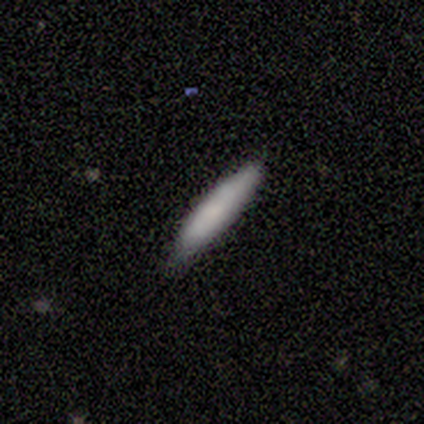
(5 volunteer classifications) Smooth or featured?
  - smooth: 100% *
  - featured or disk: 0%
  - star or artifact: 0%
How rounded?
  - cigar-shaped: 60% *
  - in between: 40%
  - round: 0%
Merging?
  - none: 60% *
  - minor disturbance: 20%
  - merger: 20%
  - major disturbance: 0%